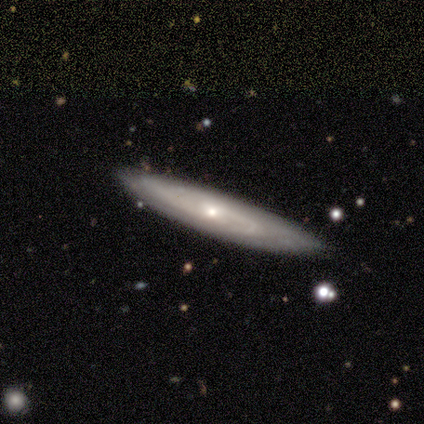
Volunteers were most divided on "spiral arm count" (2-way tie): 2: 50%, can't tell: 50%, 1: 0%, 3: 0%, 4: 0%, more than 4: 0%. More confident: bar — no (100%); spiral winding — tight (100%); smooth or featured — featured or disk (80%); merging — none (80%); edge-on disk — no (75%); spiral arms — yes (67%); bulge size — small (67%).